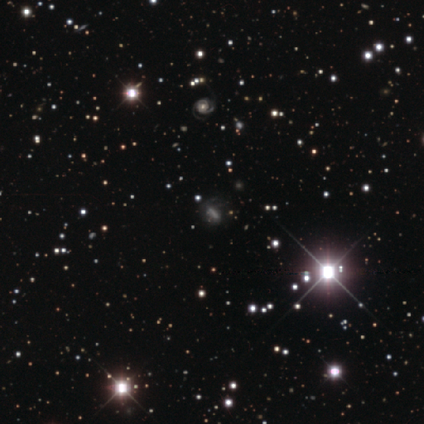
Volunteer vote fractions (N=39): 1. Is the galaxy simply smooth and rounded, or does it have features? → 56% star or artifact, 26% smooth, 18% featured or disk.